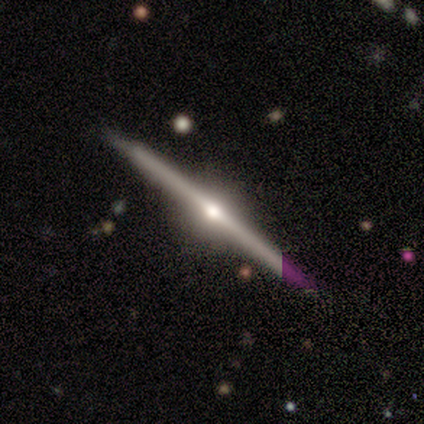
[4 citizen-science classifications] Q: Smooth or featured?
A: featured or disk (100%)
Q: Edge-on disk?
A: yes (100%)
Q: Edge-on bulge?
A: rounded (100%)
Q: Merging?
A: none (100%)